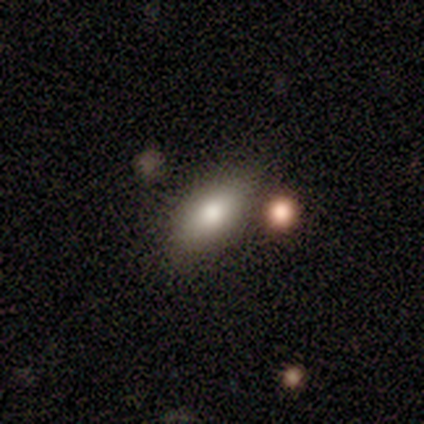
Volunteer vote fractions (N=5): Q: Smooth or featured?
A: smooth (100%)
Q: How rounded?
A: in between (100%)
Q: Merging?
A: none (60%); runner-up: minor disturbance (40%)